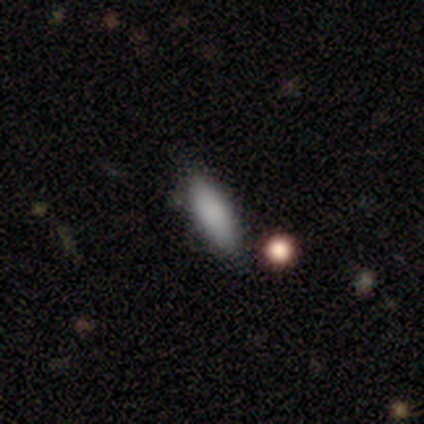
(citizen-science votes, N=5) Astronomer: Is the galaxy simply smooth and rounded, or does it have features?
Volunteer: smooth — 80%.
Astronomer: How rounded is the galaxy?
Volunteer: cigar-shaped — 100%.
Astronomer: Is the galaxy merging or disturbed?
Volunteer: none — 75%.